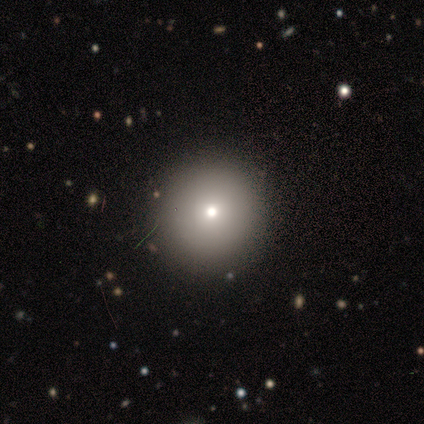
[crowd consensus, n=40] smooth_or_featured: smooth (p=0.78) [alt: star or artifact p=0.20]
how_rounded: round (p=1.00)
merging: none (p=0.94) [alt: minor disturbance p=0.06]